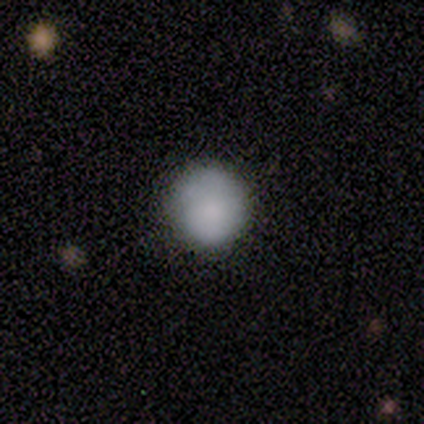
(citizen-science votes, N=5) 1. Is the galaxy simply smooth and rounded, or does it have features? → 80% smooth, 20% star or artifact, 0% featured or disk.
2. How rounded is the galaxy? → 100% round, 0% in between, 0% cigar-shaped.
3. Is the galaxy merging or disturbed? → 100% none, 0% minor disturbance, 0% major disturbance, 0% merger.